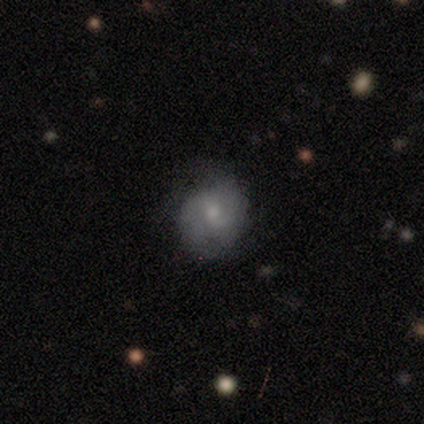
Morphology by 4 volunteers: smooth-or-featured: featured or disk: 100% | smooth: 0% | star or artifact: 0%
  disk-edge-on: no: 100% | yes: 0%
    bar: no: 75% | weak: 25% | strong: 0%
    has-spiral-arms: yes: 100% | no: 0%
      spiral-winding: loose: 50% | tight: 25% | medium: 25%
      spiral-arm-count: can't tell: 50% | 1: 25% | 4: 25% | 2: 0% | 3: 0% | more than 4: 0%
    bulge-size: small: 100% | dominant: 0% | large: 0% | moderate: 0% | none: 0%
  merging: none: 75% | minor disturbance: 25% | major disturbance: 0% | merger: 0%